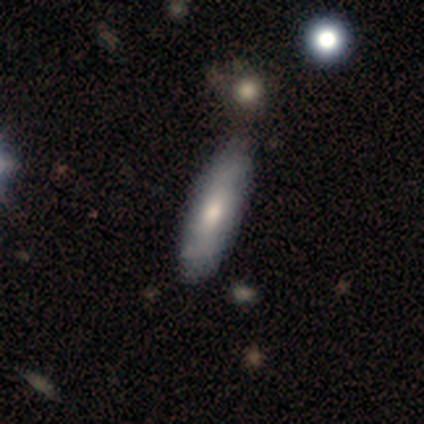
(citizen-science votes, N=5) This is marginally a smooth galaxy (40%, tied with featured or disk). How rounded: clearly in between (100%). Merging: likely none (75%).